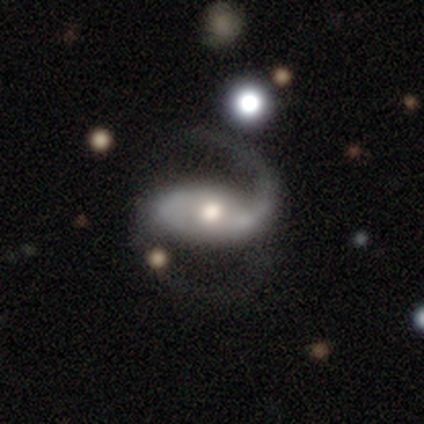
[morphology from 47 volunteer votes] Smooth or featured? featured or disk (94%)
Edge-on disk? no (98%)
Bar? no (47%)
Spiral arms? yes (95%)
Spiral winding? loose (54%)
Spiral arm count? 2 (88%)
Bulge size? moderate (63%)
Merging? none (55%)